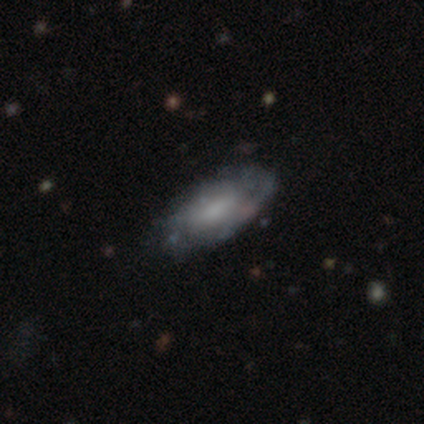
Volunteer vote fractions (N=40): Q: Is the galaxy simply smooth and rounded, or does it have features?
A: featured or disk — 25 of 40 (62%).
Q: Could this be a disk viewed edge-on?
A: no — 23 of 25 (92%).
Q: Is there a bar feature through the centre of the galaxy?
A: no — 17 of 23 (74%).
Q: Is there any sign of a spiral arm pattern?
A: no — 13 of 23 (57%).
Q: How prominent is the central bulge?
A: small — 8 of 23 (35%).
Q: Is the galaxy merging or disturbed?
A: none — 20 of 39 (51%).